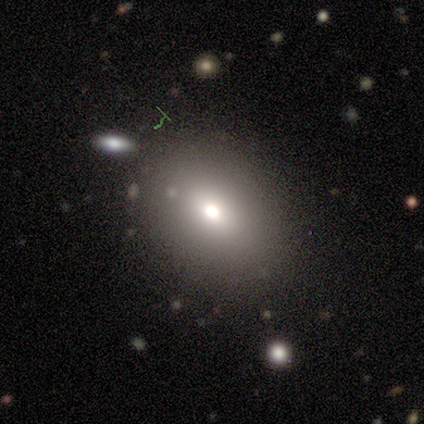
A smooth galaxy with no disk features (80%) that is round (50%, tied with in between).

Vote fractions:
- Smooth or featured? smooth: 80% / star or artifact: 20% / featured or disk: 0%
- How rounded? round: 50% (tied) / in between: 50% (tied) / cigar-shaped: 0%
- Merging? none: 100% / minor disturbance: 0% / major disturbance: 0% / merger: 0%